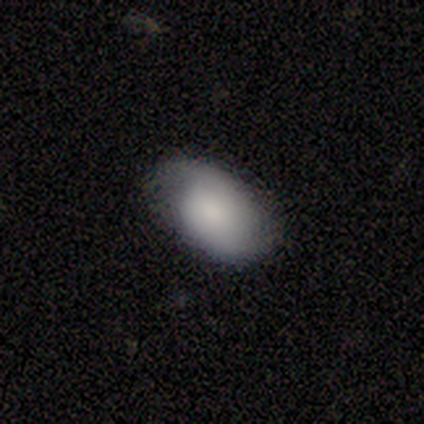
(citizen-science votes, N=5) smooth_or_featured: featured or disk (p=0.60) [alt: smooth p=0.40]
disk_edge_on: no (p=1.00)
bar: no (p=1.00)
has_spiral_arms: no (p=0.67) [alt: yes p=0.33]
bulge_size: small (p=0.67) [alt: moderate p=0.33]
merging: none (p=0.60) [alt: minor disturbance p=0.40]